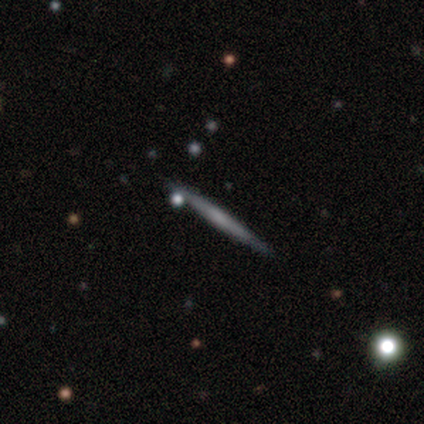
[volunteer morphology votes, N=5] This appears to be a smooth galaxy with no disk features (40%, tied with star or artifact) that is cigar-shaped (100%). Merging: none (100%).